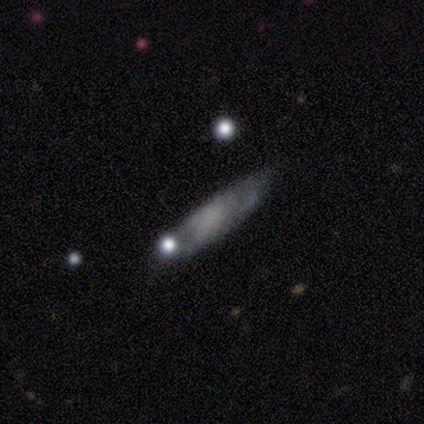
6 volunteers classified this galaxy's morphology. smooth-or-featured: smooth: 100% | featured or disk: 0% | star or artifact: 0%
  how-rounded: cigar-shaped: 67% | in between: 33% | round: 0%
  merging: minor disturbance: 50% | none: 33% | merger: 17% | major disturbance: 0%